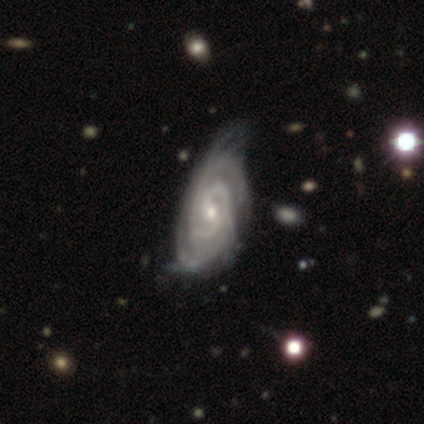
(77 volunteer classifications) This appears to be a featured or disk galaxy (92%) with no bar (50%), 2 (32%, tied with can't tell) tight (75%) spiral arms (97%) and a small central bulge (60%). Merging: minor disturbance (24%).